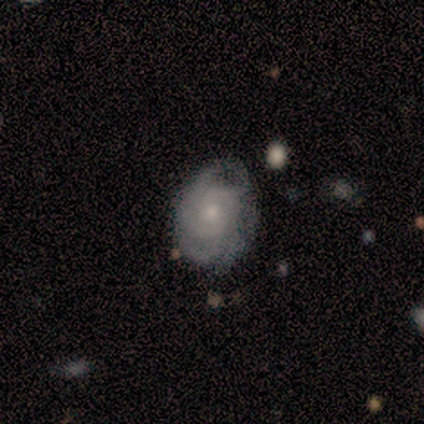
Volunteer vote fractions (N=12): A featured or disk galaxy (83%) with no bar (90%), 3 (40%, tied with can't tell) tight (80%) spiral arms (100%) and a small central bulge (70%). Merging: none (64%).